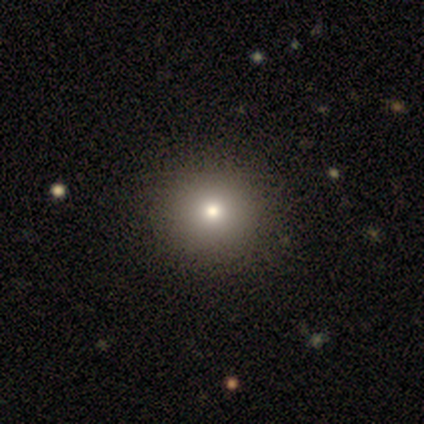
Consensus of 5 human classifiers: Smooth or featured? 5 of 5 (100%) said smooth. How rounded? 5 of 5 (100%) said round. Merging? 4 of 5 (80%) said none.